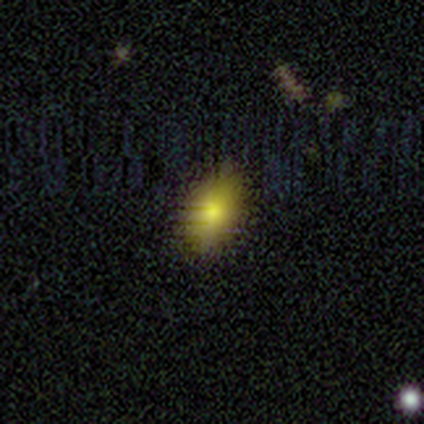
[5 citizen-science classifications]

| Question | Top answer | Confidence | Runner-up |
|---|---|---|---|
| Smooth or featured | smooth | 60% | star or artifact (40%) |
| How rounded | in between | 100% | — |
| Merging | none | 67% | minor disturbance (33%) |